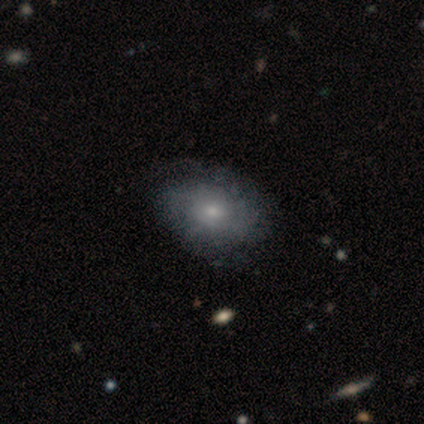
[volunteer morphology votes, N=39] A featured or disk galaxy (72%) with no bar (85%), 2 (50%) tight (44%) spiral arms (67%) and a small central bulge (56%).

Vote fractions:
- Smooth or featured? featured or disk: 72% / smooth: 26% / star or artifact: 3%
- Edge-on disk? no: 96% / yes: 4%
- Bar? no: 85% / weak: 15% / strong: 0%
- Spiral arms? yes: 67% / no: 33%
- Spiral winding? tight: 44% / medium: 39% / loose: 17%
- Spiral arm count? 2: 50% / can't tell: 39% / 1: 6% / 3: 6% / 4: 0% / more than 4: 0%
- Bulge size? small: 56% / moderate: 41% / none: 4% / dominant: 0% / large: 0%
- Merging? none: 61% / minor disturbance: 8% / major disturbance: 8% / merger: 0%